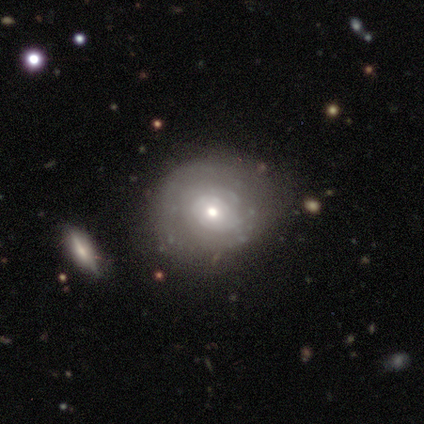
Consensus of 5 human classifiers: A smooth galaxy with no disk features (60%) that is round (100%). Merging: none (50%, tied with minor disturbance).